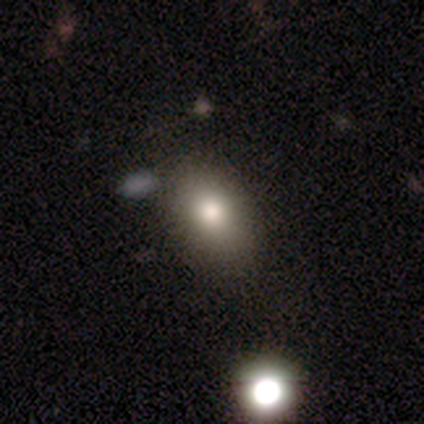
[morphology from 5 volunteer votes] Overall: smooth (80%). How rounded: in between (100%). Merging: none (50%; minor disturbance 25%).